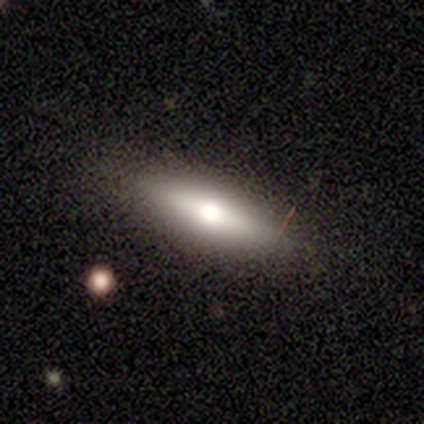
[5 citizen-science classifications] A featured or disk galaxy (60%) viewed edge-on (100%) with a rounded central bulge (100%). Merging: none (80%).